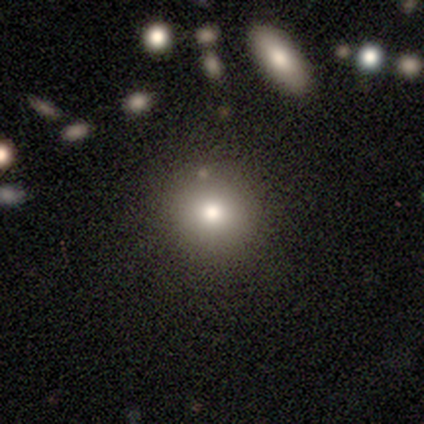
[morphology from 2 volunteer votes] This appears to be a smooth galaxy with no disk features (50%, tied with featured or disk) that is round (100%). Merging: none (100%).